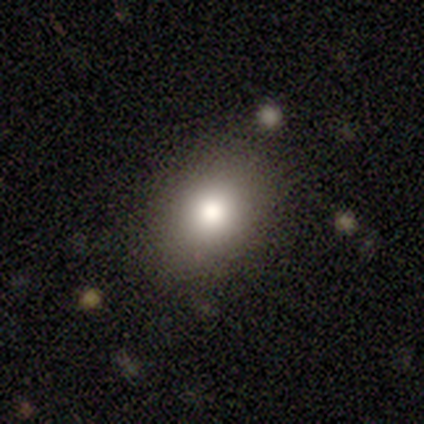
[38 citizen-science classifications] Smooth or featured: smooth — 84% (star or artifact — 11%)
How rounded: in between — 56% (round — 44%)
Merging: none — 71% (minor disturbance — 21%)